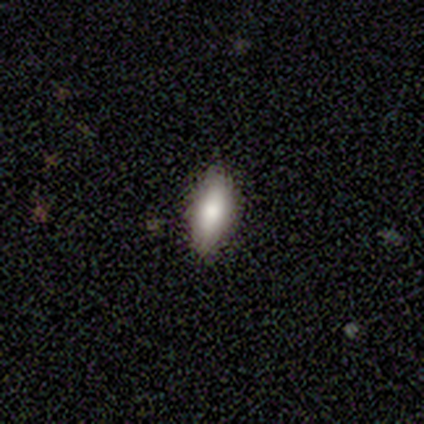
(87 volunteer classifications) Morphology: type=smooth (79%); roundness=in between (72%); merging=none (85%).